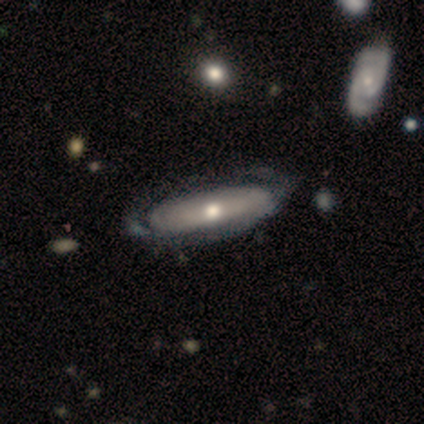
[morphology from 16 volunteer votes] A featured or disk galaxy (62%) with no bar (75%), no spiral arms (75%) and a moderate central bulge (88%).

Vote fractions:
- Smooth or featured? featured or disk: 62% / smooth: 31% / star or artifact: 6%
- Edge-on disk? no: 80% / yes: 20%
- Bar? no: 75% / strong: 12% / weak: 12%
- Spiral arms? no: 75% / yes: 25%
- Bulge size? moderate: 88% / small: 12% / dominant: 0% / large: 0% / none: 0%
- Merging? none: 67% / minor disturbance: 13% / major disturbance: 13% / merger: 7%